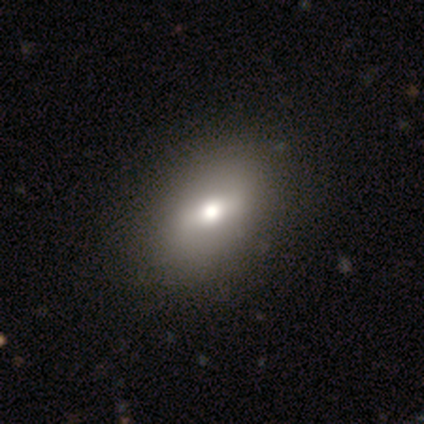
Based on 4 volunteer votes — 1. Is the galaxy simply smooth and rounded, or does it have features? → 75% smooth, 25% star or artifact, 0% featured or disk.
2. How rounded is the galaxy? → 67% in between, 33% round, 0% cigar-shaped.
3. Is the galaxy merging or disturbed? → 67% none, 33% minor disturbance, 0% major disturbance, 0% merger.